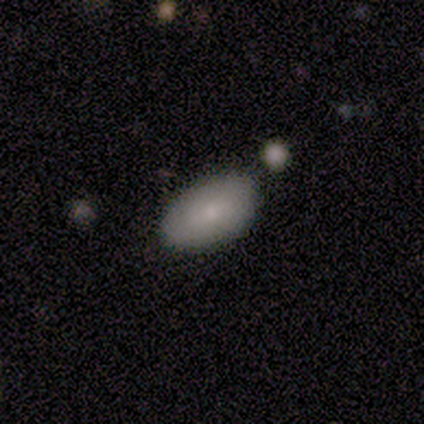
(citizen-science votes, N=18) Smooth or featured? smooth (78%)
How rounded? in between (100%)
Merging? none (83%)